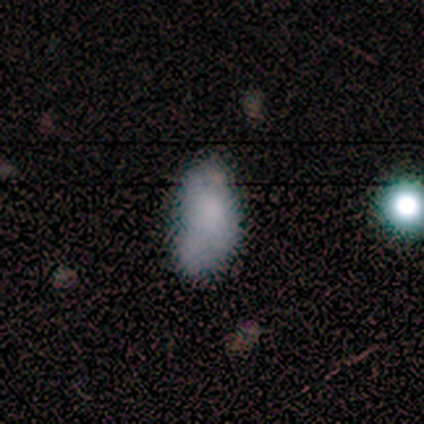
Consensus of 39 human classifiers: Smooth or featured? smooth (62%)
How rounded? in between (92%)
Merging? minor disturbance (56%)